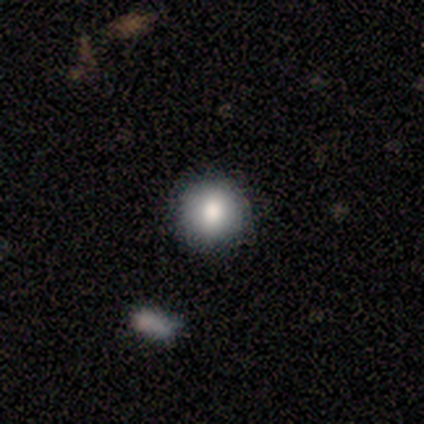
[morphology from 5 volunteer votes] Q: Smooth or featured?
A: smooth (100%)
Q: How rounded?
A: round (100%)
Q: Merging?
A: none (80%); runner-up: minor disturbance (20%)